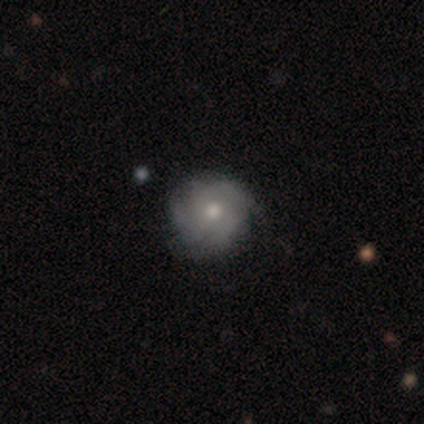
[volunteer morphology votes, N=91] featured or disk 57%, smooth 34%, star or artifact 9%. Down the decision tree: edge-on disk — no (100%); bar — no (87%); spiral arms — yes (85%); spiral arm count — 3 (55%); spiral winding — tight (57%); bulge size — moderate (65%); merging — none (72%).